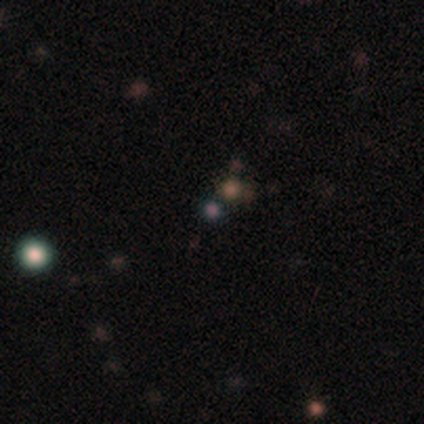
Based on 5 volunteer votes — smooth_or_featured: star or artifact (p=0.60) [alt: smooth p=0.20]